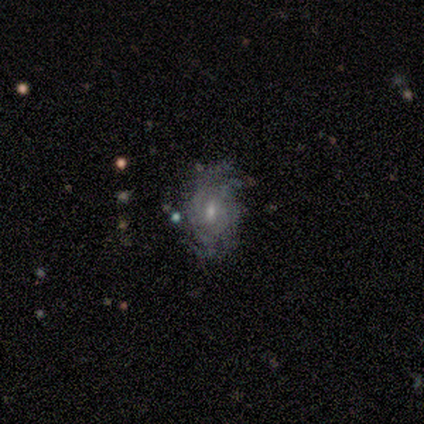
Smooth or featured?
  - featured or disk: 60% *
  - smooth: 20%
  - star or artifact: 20%
Edge-on disk?
  - no: 100% *
  - yes: 0%
Bar?
  - weak: 67% *
  - no: 33%
  - strong: 0%
Spiral arms?
  - yes: 100% *
  - no: 0%
Spiral winding?
  - loose: 67% *
  - tight: 33%
  - medium: 0%
Spiral arm count?
  - can't tell: 67% *
  - 4: 33%
  - 1: 0%
  - 2: 0%
  - 3: 0%
  - more than 4: 0%
Bulge size?
  - small: 67% *
  - moderate: 33%
  - dominant: 0%
  - large: 0%
  - none: 0%
Merging?
  - none: 75% *
  - minor disturbance: 25%
  - major disturbance: 0%
  - merger: 0%